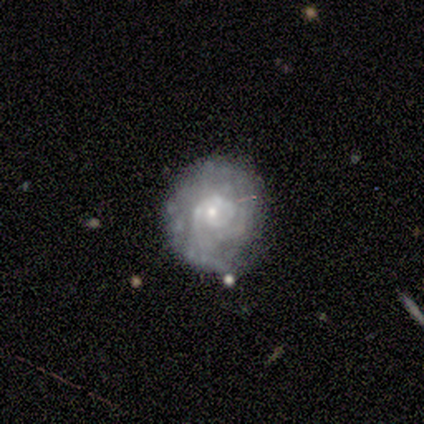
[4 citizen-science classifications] A featured or disk galaxy (75%) with no bar (100%), tight (100%) spiral arms (100%) and a small central bulge (67%). Merging: none (75%).